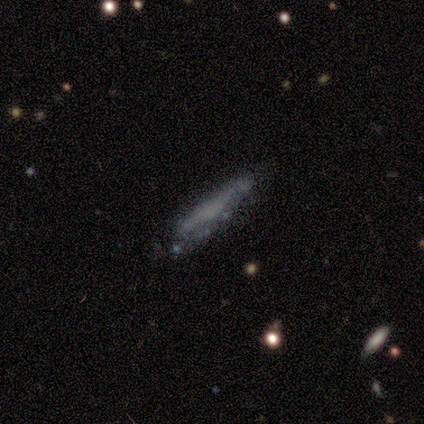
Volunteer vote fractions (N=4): Q: Smooth or featured?
A: smooth (50%); tied with: featured or disk (50%)
Q: How rounded?
A: cigar-shaped (100%)
Q: Merging?
A: none (75%); runner-up: minor disturbance (25%)